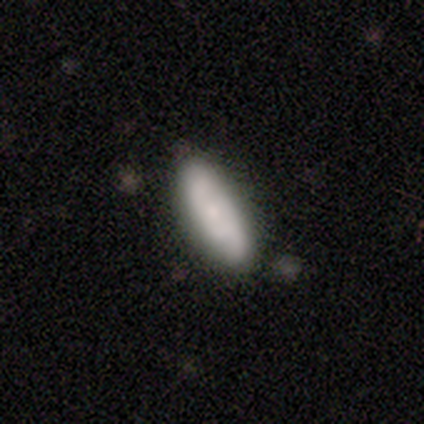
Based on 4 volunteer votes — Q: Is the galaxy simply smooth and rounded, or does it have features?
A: smooth — 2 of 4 (50%, tied with featured or disk).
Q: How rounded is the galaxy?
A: in between — 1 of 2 (50%, tied with cigar-shaped).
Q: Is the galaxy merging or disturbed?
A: none — 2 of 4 (50%, tied with minor disturbance).